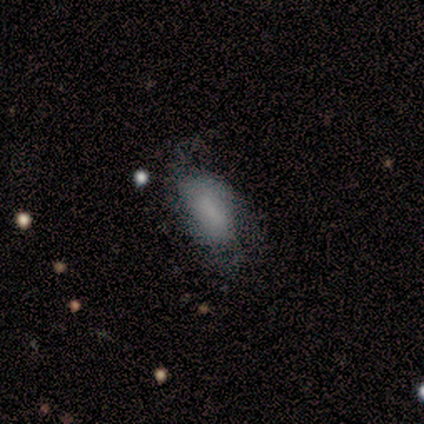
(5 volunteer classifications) This appears to be a smooth galaxy with no disk features (60%) that is in between round and cigar-shaped (67%). Merging: minor disturbance (60%).